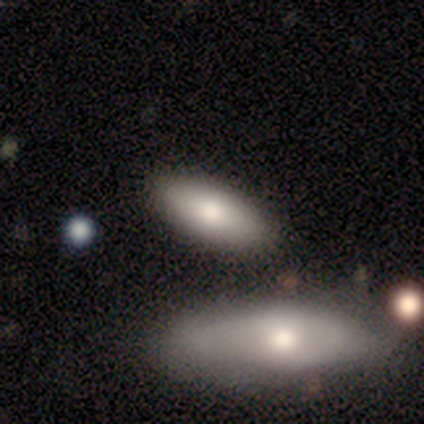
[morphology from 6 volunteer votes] Smooth or featured? 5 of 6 (83%) said smooth. How rounded? 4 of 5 (80%) said in between. Merging? 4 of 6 (67%) said none.